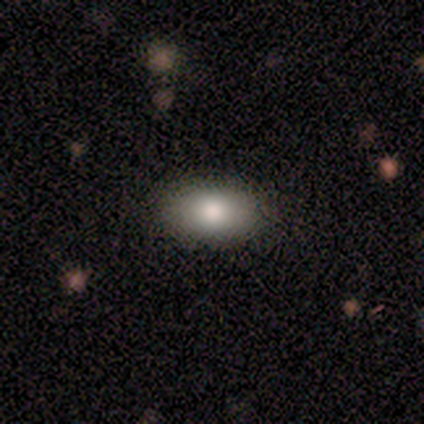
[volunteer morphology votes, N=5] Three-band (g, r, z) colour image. It shows a smooth galaxy with no disk features (80%) that is in between round and cigar-shaped (100%). Merging: none (100%).